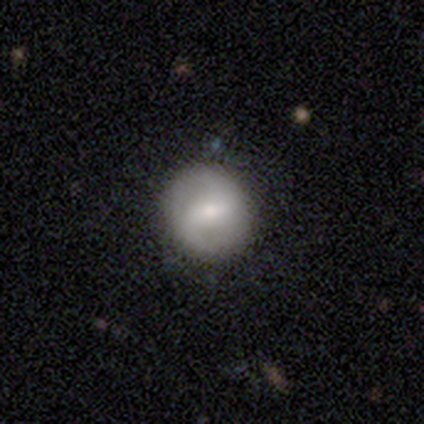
Volunteers were most divided on "spiral winding" (2-way tie): medium: 47%, loose: 47%, tight: 5%. More confident: spiral arm count — 2 (100%); edge-on disk — no (96%); merging — none (89%); spiral arms — yes (79%); smooth or featured — featured or disk (66%); bar — weak (62%); bulge size — small (58%).